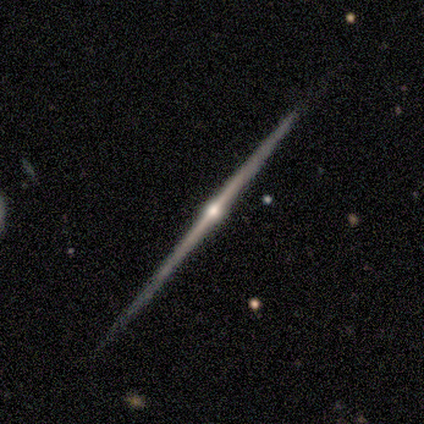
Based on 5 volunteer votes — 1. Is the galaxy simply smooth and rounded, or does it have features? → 80% featured or disk, 20% star or artifact, 0% smooth.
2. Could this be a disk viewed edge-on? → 100% yes, 0% no.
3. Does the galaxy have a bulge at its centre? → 100% rounded, 0% boxy, 0% none.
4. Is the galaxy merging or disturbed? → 100% none, 0% minor disturbance, 0% major disturbance, 0% merger.